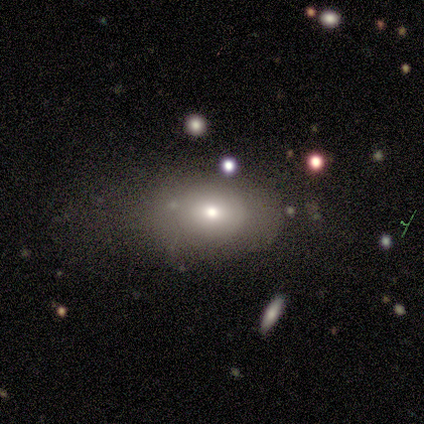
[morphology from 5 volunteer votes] smooth_or_featured: smooth (p=0.40) [tied with: star or artifact p=0.40]
how_rounded: in between (p=1.00)
merging: major disturbance (p=0.67) [alt: none p=0.33]